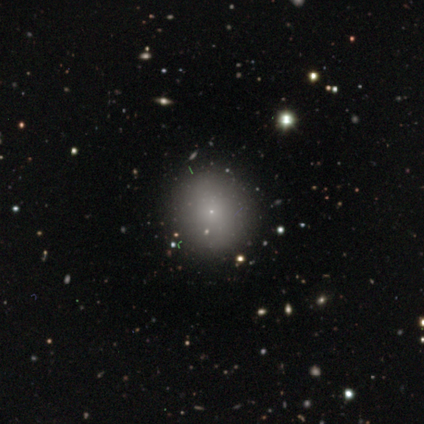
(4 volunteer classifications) smooth-or-featured: smooth: 75% | star or artifact: 25% | featured or disk: 0%
  how-rounded: round: 100% | in between: 0% | cigar-shaped: 0%
  merging: none: 100% | minor disturbance: 0% | major disturbance: 0% | merger: 0%